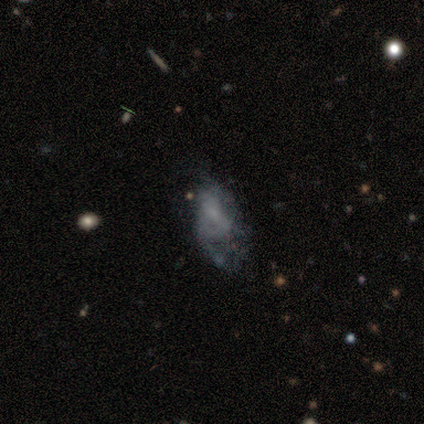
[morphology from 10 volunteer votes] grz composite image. It shows a featured or disk galaxy (80%) with no bar (62%), no spiral arms (62%) and a small central bulge (50%). Merging: major disturbance (44%).